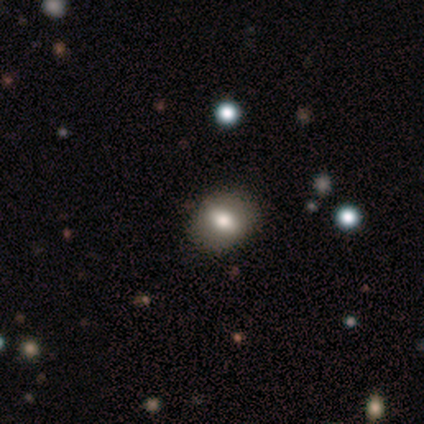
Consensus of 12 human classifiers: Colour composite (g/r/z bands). It shows a smooth galaxy with no disk features (58%) that is in between round and cigar-shaped (71%). Merging: none (89%).